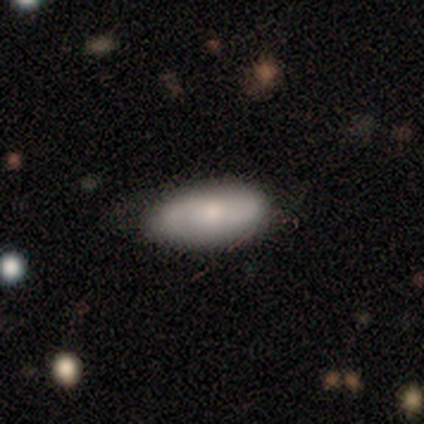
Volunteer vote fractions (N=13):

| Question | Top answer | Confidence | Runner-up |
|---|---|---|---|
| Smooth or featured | smooth | 62% | featured or disk (23%) |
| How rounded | in between | 75% | cigar-shaped (25%) |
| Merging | none | 82% | minor disturbance (9%) |